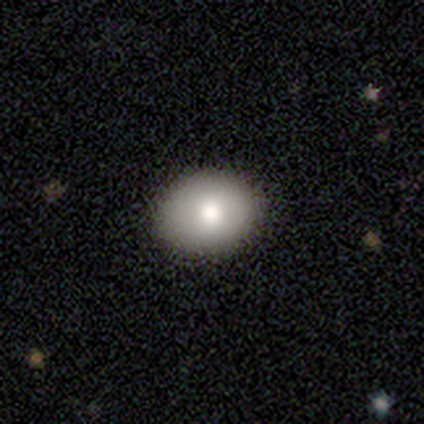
smooth_or_featured: smooth (p=1.00)
how_rounded: in between (p=0.60) [alt: round p=0.40]
merging: none (p=1.00)